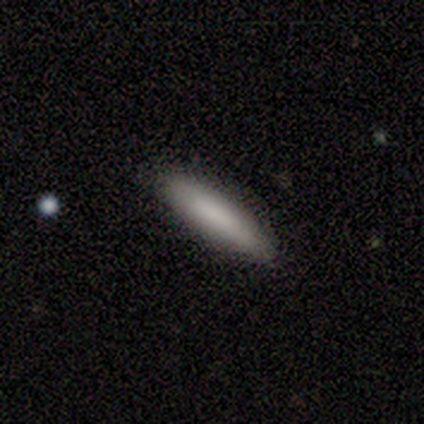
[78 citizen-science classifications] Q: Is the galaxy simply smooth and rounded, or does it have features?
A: smooth — 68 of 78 (87%).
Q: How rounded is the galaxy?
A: cigar-shaped — 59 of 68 (87%).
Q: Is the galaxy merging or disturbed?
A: none — 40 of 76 (53%).